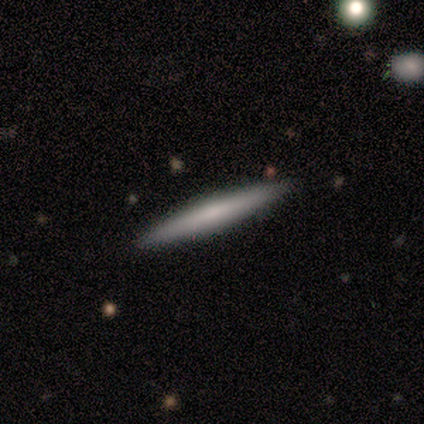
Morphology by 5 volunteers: This is likely a smooth galaxy (60%). How rounded: likely cigar-shaped (67%). Merging: clearly none (80%).